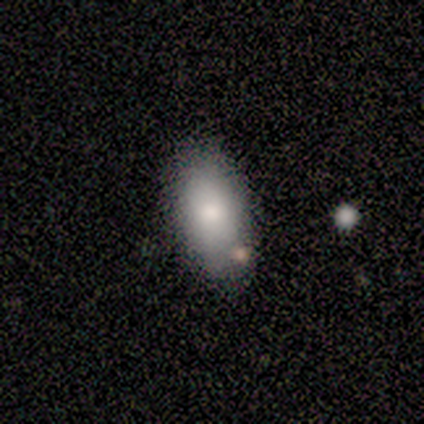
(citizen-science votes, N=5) A smooth galaxy with no disk features (80%) that is in between round and cigar-shaped (100%).

Vote fractions:
- Smooth or featured? smooth: 80% / star or artifact: 20% / featured or disk: 0%
- How rounded? in between: 100% / round: 0% / cigar-shaped: 0%
- Merging? none: 50% (tied) / minor disturbance: 50% (tied) / major disturbance: 0% / merger: 0%